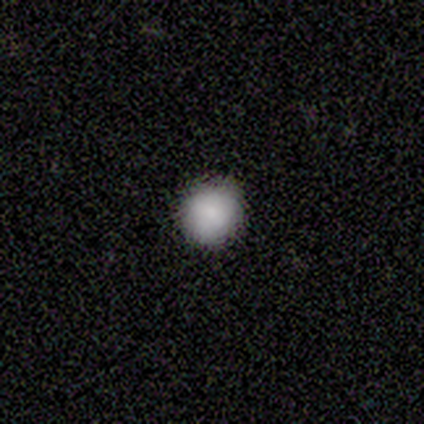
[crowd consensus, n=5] Smooth or featured? smooth (100%)
How rounded? round (100%)
Merging? none (100%)